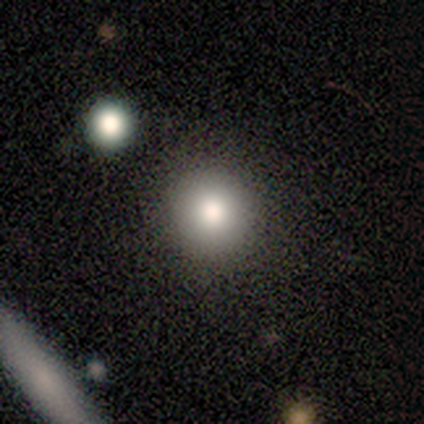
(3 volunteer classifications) A smooth galaxy with no disk features (100%) that is round (100%).

Vote fractions:
- Smooth or featured? smooth: 100% / featured or disk: 0% / star or artifact: 0%
- How rounded? round: 100% / in between: 0% / cigar-shaped: 0%
- Merging? none: 100% / minor disturbance: 0% / major disturbance: 0% / merger: 0%